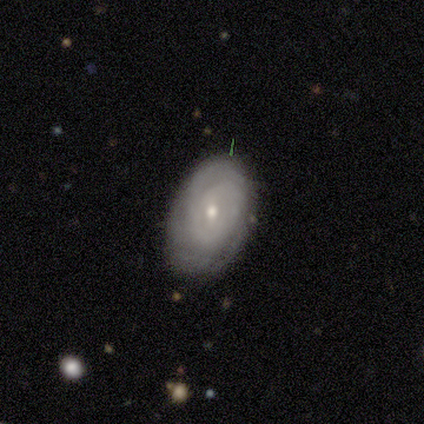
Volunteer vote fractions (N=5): smooth-or-featured: featured or disk: 100% | smooth: 0% | star or artifact: 0%
  disk-edge-on: no: 80% | yes: 20%
    bar: weak: 50% (tied) | no: 50% (tied) | strong: 0%
    has-spiral-arms: yes: 100% | no: 0%
      spiral-winding: tight: 75% | medium: 25% | loose: 0%
      spiral-arm-count: 2: 50% (tied) | can't tell: 50% (tied) | 1: 0% | 3: 0% | 4: 0% | more than 4: 0%
    bulge-size: moderate: 50% | small: 25% | none: 25% | dominant: 0% | large: 0%
  merging: none: 80% | minor disturbance: 20% | major disturbance: 0% | merger: 0%